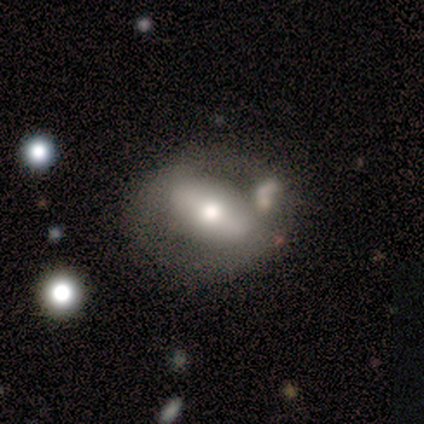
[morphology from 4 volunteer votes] This appears to be a smooth galaxy with no disk features (50%, tied with featured or disk) that is round (50%, tied with in between). Merging: none (25%, tied with minor disturbance, major disturbance and merger).